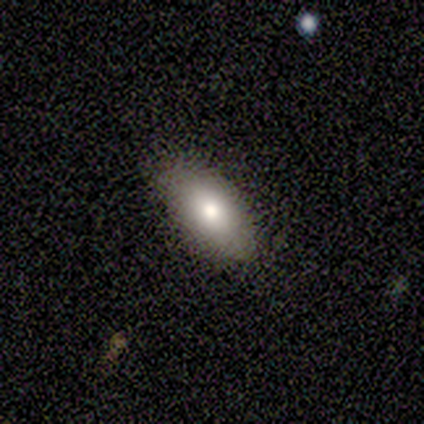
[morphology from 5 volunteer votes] Volunteers were most divided on "merging": none: 80%, minor disturbance: 20%, major disturbance: 0%, merger: 0%. More confident: smooth or featured — smooth (100%); how rounded — in between (100%).